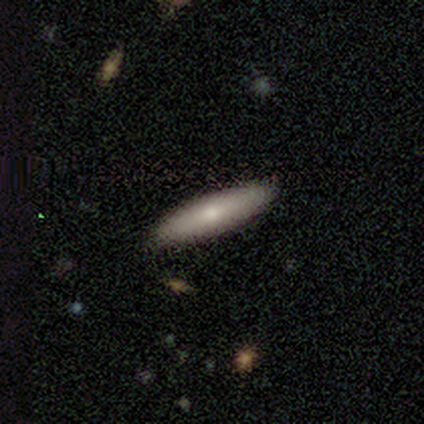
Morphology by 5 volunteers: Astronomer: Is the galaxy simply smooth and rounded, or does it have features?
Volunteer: smooth — 80%.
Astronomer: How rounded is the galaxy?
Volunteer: cigar-shaped — 75%.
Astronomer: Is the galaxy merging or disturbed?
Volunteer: none — 60% (runner-up: minor disturbance, 40%).